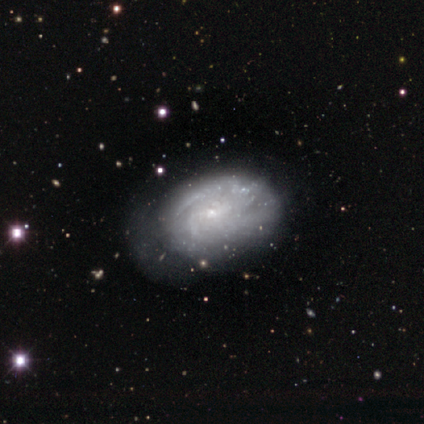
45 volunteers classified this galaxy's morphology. This appears to be a featured or disk galaxy (73%) with no bar (71%), tight (58%) spiral arms (84%) and a small central bulge (87%). Merging: none (40%).